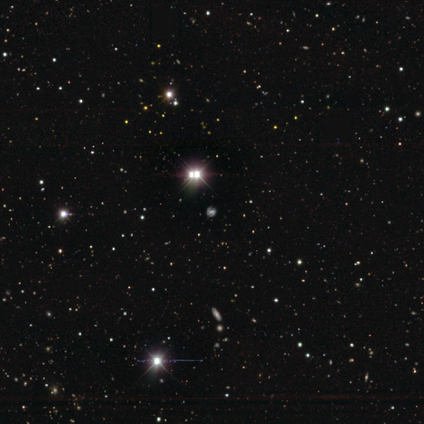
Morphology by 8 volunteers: Smooth or featured? 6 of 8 (75%) said star or artifact.